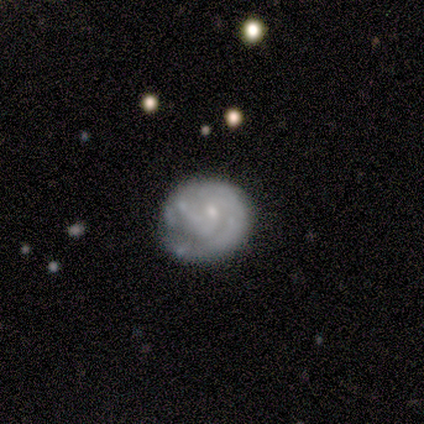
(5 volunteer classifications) Volunteers were most divided on "bar" (2-way tie): weak: 50%, no: 50%, strong: 0%. More confident: smooth or featured — featured or disk (100%); spiral arms — yes (100%); edge-on disk — no (80%); spiral winding — tight (75%); bulge size — small (75%); merging — none (60%); spiral arm count — 1 (50%).